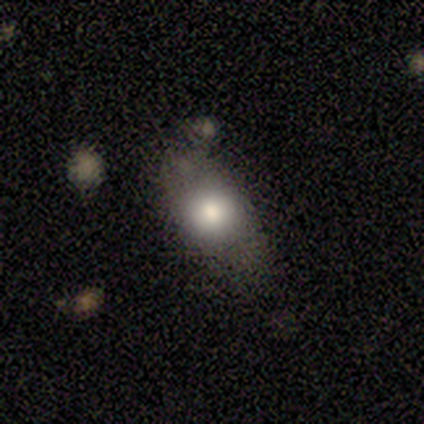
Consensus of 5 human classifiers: A smooth galaxy with no disk features (100%) that is in between round and cigar-shaped (60%).

Vote fractions:
- Smooth or featured? smooth: 100% / featured or disk: 0% / star or artifact: 0%
- How rounded? in between: 60% / cigar-shaped: 40% / round: 0%
- Merging? none: 40% (tied) / minor disturbance: 40% (tied) / major disturbance: 20% / merger: 0%